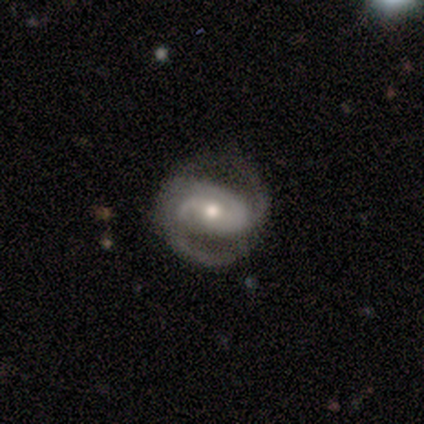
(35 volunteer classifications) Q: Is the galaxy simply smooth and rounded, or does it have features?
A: featured or disk — 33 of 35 (94%).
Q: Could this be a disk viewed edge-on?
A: no — 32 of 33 (97%).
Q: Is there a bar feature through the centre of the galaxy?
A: weak — 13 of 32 (41%, tied with no).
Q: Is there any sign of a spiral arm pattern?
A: yes — 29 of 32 (91%).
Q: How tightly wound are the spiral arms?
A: medium — 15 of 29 (52%).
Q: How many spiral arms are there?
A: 2 — 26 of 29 (90%).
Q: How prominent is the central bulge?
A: moderate — 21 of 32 (66%).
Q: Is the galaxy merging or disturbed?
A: none — 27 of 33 (82%).